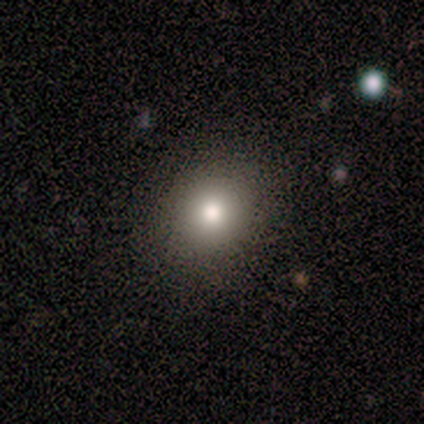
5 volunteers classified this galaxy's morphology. type=smooth (100%); roundness=in between (60%); merging=none (80%).